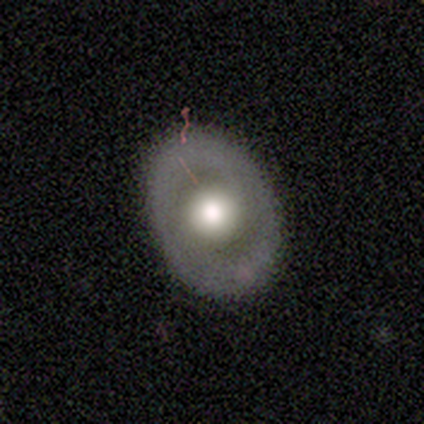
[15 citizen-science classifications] This appears to be a featured or disk galaxy (53%) with no bar (88%), no spiral arms (100%) and a large central bulge (50%). Merging: none (71%).